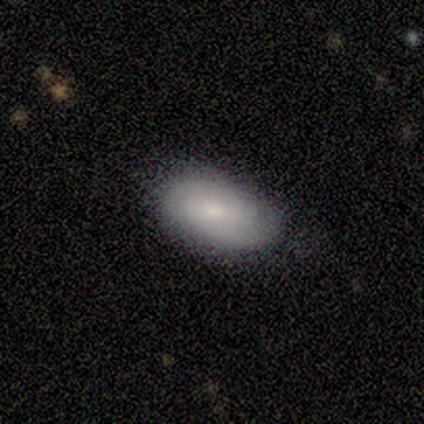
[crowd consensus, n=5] Smooth or featured? smooth (80%)
How rounded? in between (100%)
Merging? none (100%)